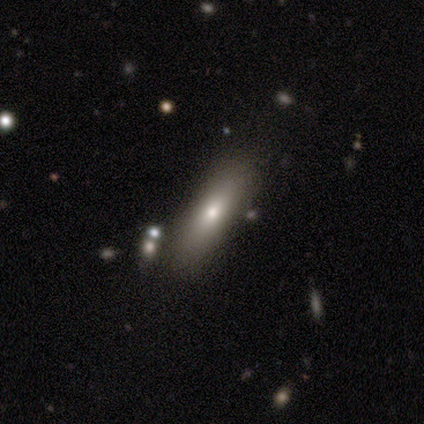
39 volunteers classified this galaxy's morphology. This is likely a smooth galaxy (64%). How rounded: likely cigar-shaped (64%). Merging: likely none (75%).